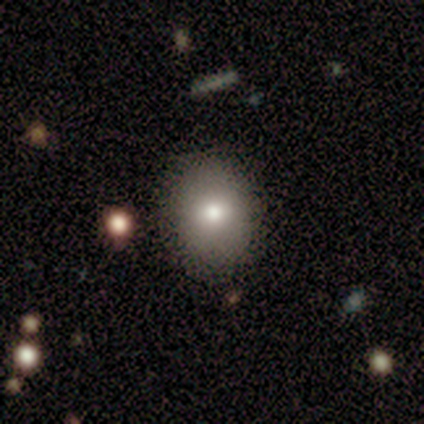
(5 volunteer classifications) Smooth or featured? 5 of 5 (100%) said smooth. How rounded? 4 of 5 (80%) said round. Merging? 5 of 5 (100%) said none.